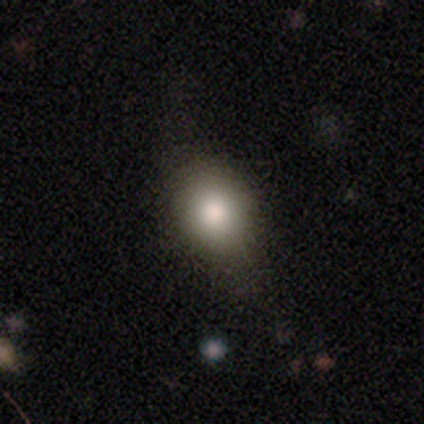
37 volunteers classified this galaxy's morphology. Smooth or featured? 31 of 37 (84%) said smooth. How rounded? 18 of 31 (58%) said in between. Merging? 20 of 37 (54%) said none.